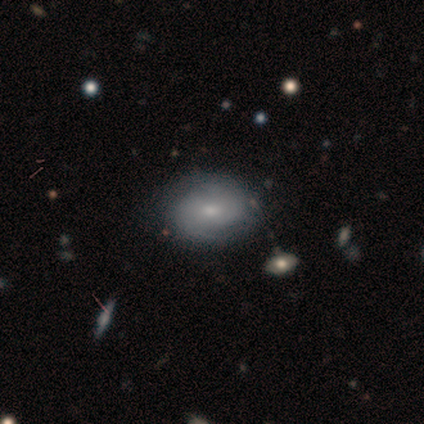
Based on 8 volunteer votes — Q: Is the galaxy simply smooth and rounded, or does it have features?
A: smooth — 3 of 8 (38%, tied with star or artifact).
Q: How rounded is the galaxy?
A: in between — 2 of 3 (67%).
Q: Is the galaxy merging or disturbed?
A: none — 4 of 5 (80%).